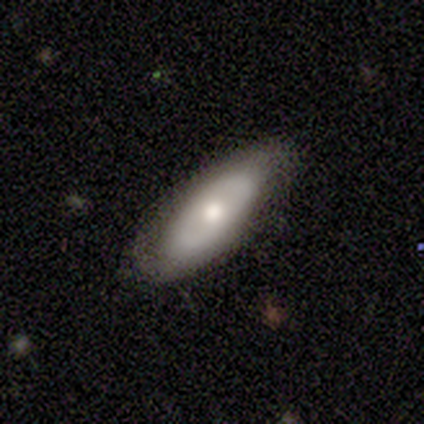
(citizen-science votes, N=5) Volunteers were most divided on "smooth or featured": smooth: 80%, featured or disk: 20%, star or artifact: 0%. More confident: how rounded — in between (100%); merging — none (80%).